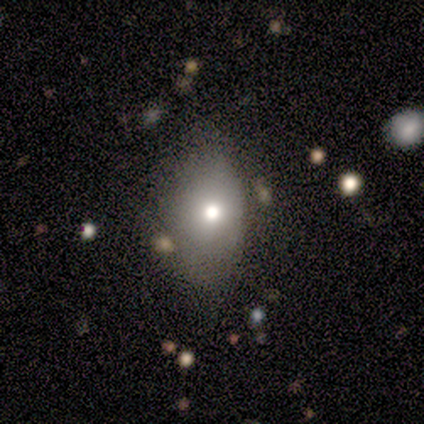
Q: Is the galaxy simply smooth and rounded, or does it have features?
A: smooth — 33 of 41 (80%).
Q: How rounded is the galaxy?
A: in between — 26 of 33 (79%).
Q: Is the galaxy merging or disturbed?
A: none — 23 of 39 (59%).